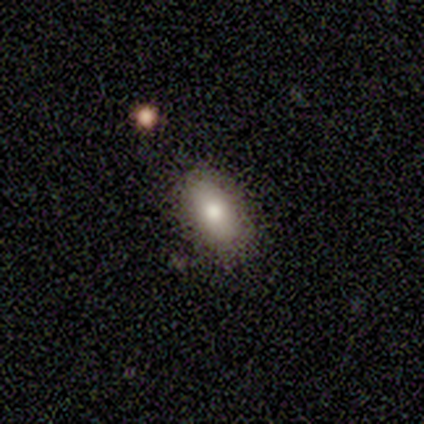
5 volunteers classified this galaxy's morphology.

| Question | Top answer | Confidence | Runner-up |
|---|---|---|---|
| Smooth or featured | smooth | 60% | star or artifact (40%) |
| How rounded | in between | 100% | — |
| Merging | none | 67% | minor disturbance (33%) |